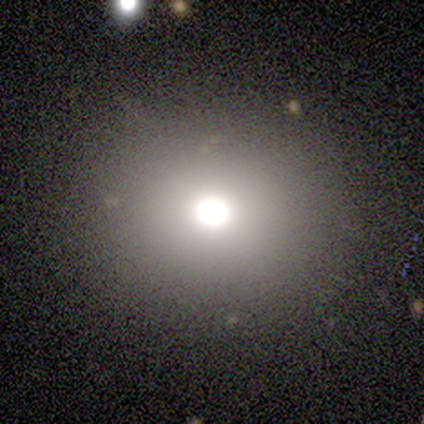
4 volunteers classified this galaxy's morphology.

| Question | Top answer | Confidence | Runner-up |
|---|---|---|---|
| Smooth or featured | smooth | 75% | featured or disk (25%) |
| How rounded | round | 100% | — |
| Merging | none | 100% | — |